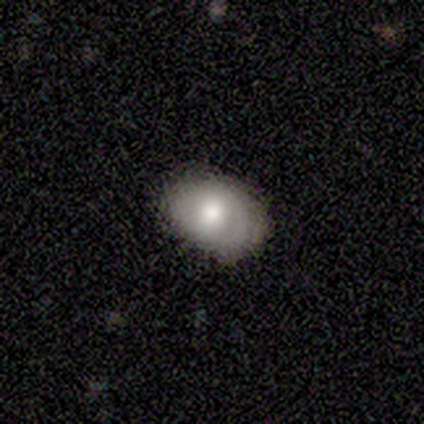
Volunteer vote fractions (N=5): Smooth or featured? featured or disk (80%)
Edge-on disk? no (100%)
Bar? no (75%)
Spiral arms? yes (75%)
Spiral winding? tight (100%)
Spiral arm count? 1 (33%, tied with 2 and more than 4)
Bulge size? large (50%)
Merging? none (60%)